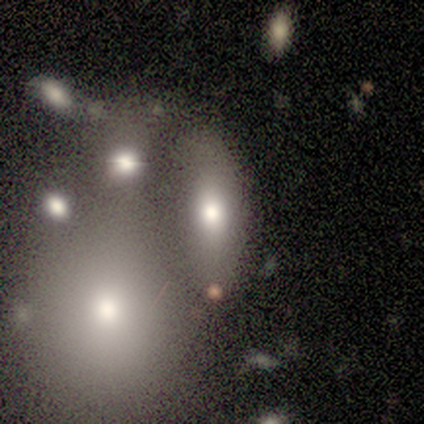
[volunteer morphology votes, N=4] Q: Smooth or featured?
A: featured or disk (50%); runner-up: smooth (25%)
Q: Edge-on disk?
A: no (100%)
Q: Bar?
A: no (100%)
Q: Spiral arms?
A: no (100%)
Q: Bulge size?
A: moderate (100%)
Q: Merging?
A: none (33%); tied with: major disturbance (33%); merger (33%)